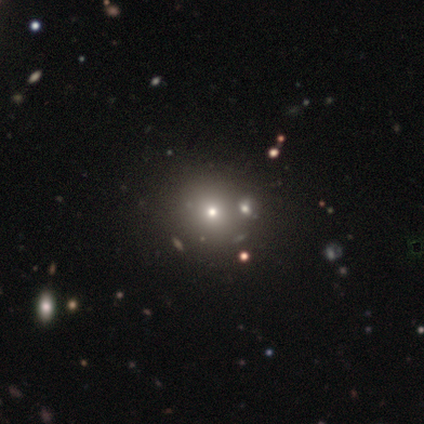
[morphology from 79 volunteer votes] smooth_or_featured: smooth (p=0.62) [alt: star or artifact p=0.24]
how_rounded: round (p=0.96) [alt: in between p=0.02]
merging: none (p=0.42) [alt: merger p=0.18]